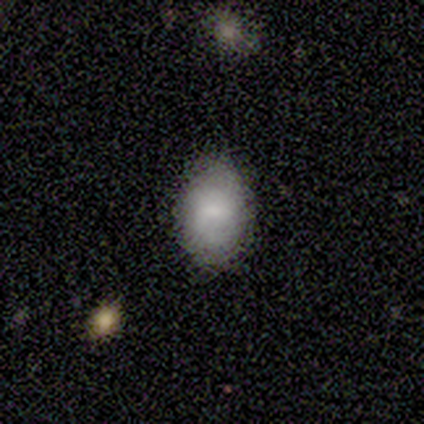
Volunteers were most divided on "merging": none: 67%, minor disturbance: 25%, major disturbance: 8%, merger: 0%. More confident: how rounded — in between (100%); smooth or featured — smooth (77%).